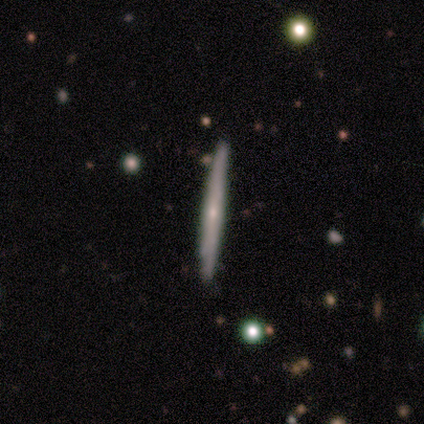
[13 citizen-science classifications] Smooth or featured? 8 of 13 (62%) said smooth. How rounded? 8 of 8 (100%) said cigar-shaped. Merging? 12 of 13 (92%) said none.